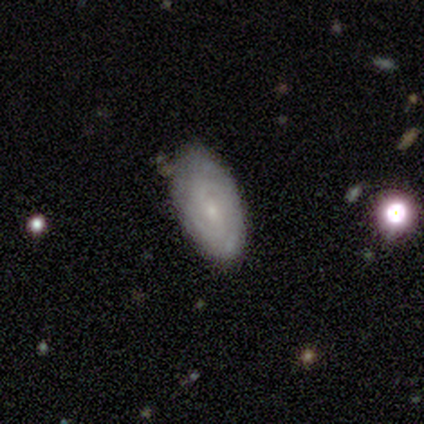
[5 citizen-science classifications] smooth-or-featured: smooth: 60% | featured or disk: 40% | star or artifact: 0%
  how-rounded: in between: 100% | round: 0% | cigar-shaped: 0%
  merging: none: 80% | minor disturbance: 20% | major disturbance: 0% | merger: 0%